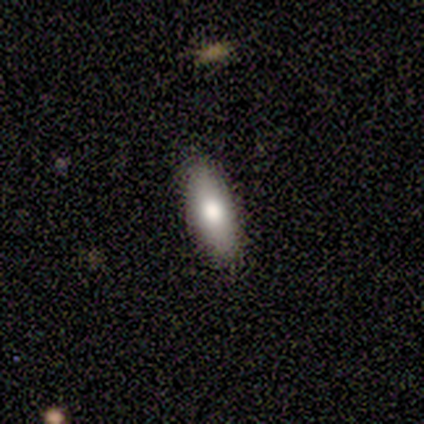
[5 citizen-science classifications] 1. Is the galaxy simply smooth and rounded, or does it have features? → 60% smooth, 20% featured or disk, 20% star or artifact.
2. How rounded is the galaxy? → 67% in between, 33% cigar-shaped, 0% round.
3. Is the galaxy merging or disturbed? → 100% none, 0% minor disturbance, 0% major disturbance, 0% merger.